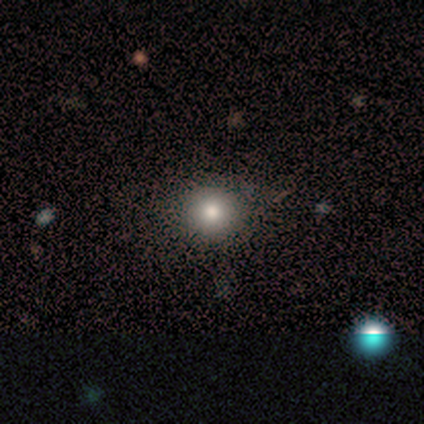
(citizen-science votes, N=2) A smooth galaxy with no disk features (50%, tied with star or artifact) that is round (100%). Merging: none (100%).